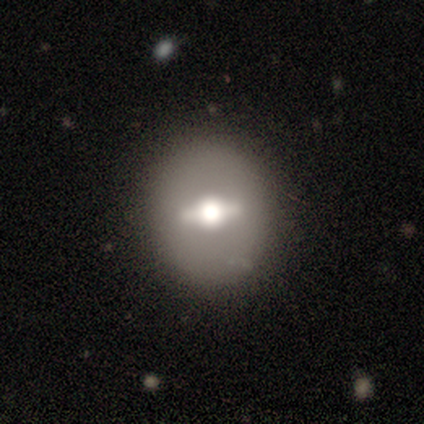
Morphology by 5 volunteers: This is likely a featured or disk galaxy (60%). It is likely not viewed edge-on (67%). Bar: clearly strong (100%). Spiral arm pattern: clearly no (100%). Central bulge: possibly large (50%, tied with moderate). Merging: clearly none (100%).